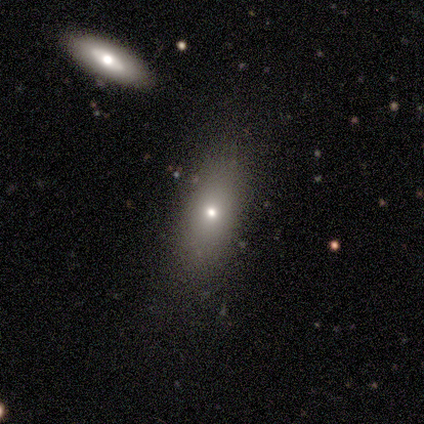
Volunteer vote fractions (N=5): smooth_or_featured: smooth (p=0.80) [alt: featured or disk p=0.20]
how_rounded: in between (p=0.75) [alt: cigar-shaped p=0.25]
merging: none (p=0.80) [alt: merger p=0.20]